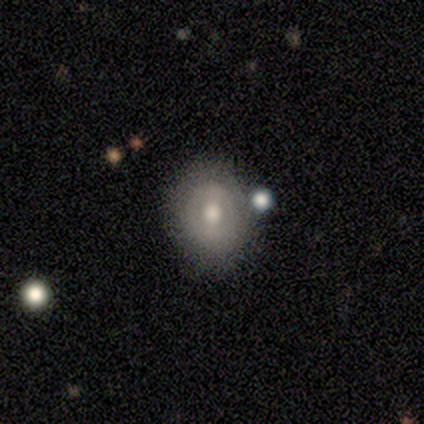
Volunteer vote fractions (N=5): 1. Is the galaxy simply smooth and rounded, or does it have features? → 60% smooth, 40% featured or disk, 0% star or artifact.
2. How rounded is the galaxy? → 100% in between, 0% round, 0% cigar-shaped.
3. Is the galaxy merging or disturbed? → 60% none, 40% minor disturbance, 0% major disturbance, 0% merger.